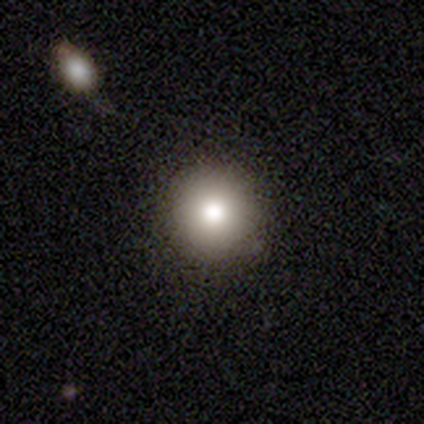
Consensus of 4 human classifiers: This is likely a smooth galaxy (75%). How rounded: clearly round (100%). Merging: likely none (75%).